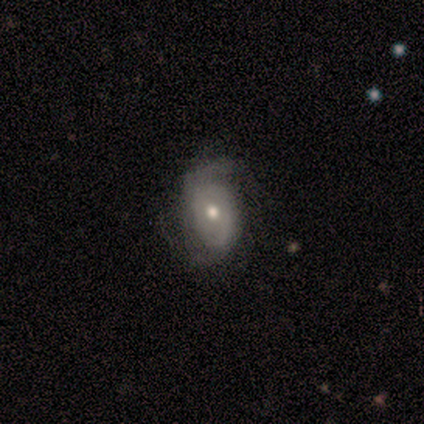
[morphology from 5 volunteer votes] Smooth or featured? featured or disk (60%)
Edge-on disk? no (100%)
Bar? no (100%)
Spiral arms? yes (100%)
Spiral winding? medium (67%)
Spiral arm count? 2 (67%)
Bulge size? moderate (67%)
Merging? none (50%, tied with minor disturbance)